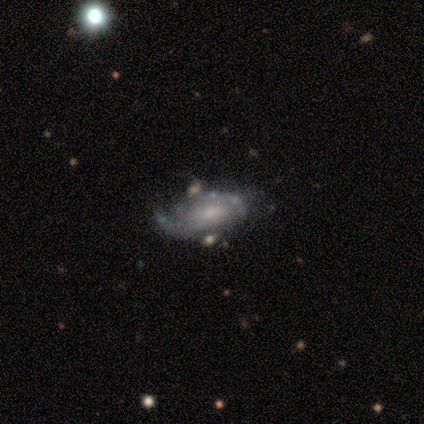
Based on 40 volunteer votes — Smooth or featured? 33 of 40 (82%) said featured or disk. Edge-on disk? 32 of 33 (97%) said no. Bar? 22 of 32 (69%) said no. Spiral arms? 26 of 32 (81%) said yes. Spiral winding? 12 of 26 (46%) said tight. Spiral arm count? 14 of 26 (54%) said can't tell. Bulge size? 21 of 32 (66%) said small. Merging? 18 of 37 (49%) said none.